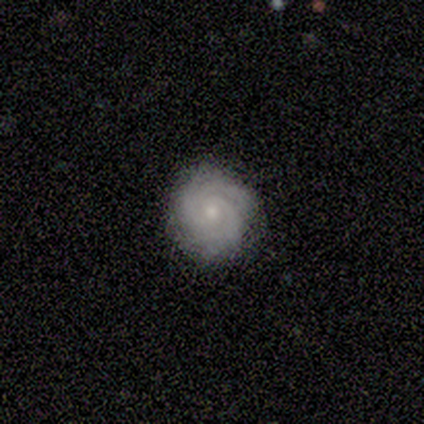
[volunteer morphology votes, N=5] Smooth or featured? featured or disk (80%)
Edge-on disk? no (100%)
Bar? no (100%)
Spiral arms? yes (100%)
Spiral winding? tight (100%)
Spiral arm count? 3 (50%)
Bulge size? moderate (50%, tied with small)
Merging? none (100%)